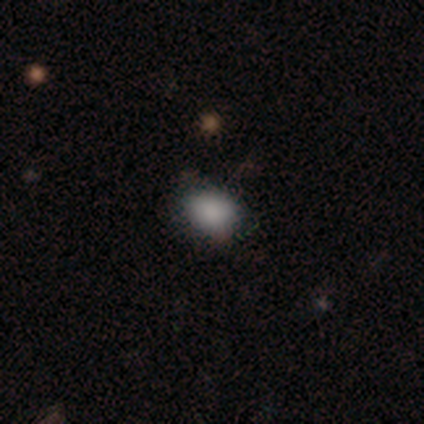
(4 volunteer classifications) smooth-or-featured: smooth: 100% | featured or disk: 0% | star or artifact: 0%
  how-rounded: in between: 75% | round: 25% | cigar-shaped: 0%
  merging: none: 75% | minor disturbance: 25% | major disturbance: 0% | merger: 0%